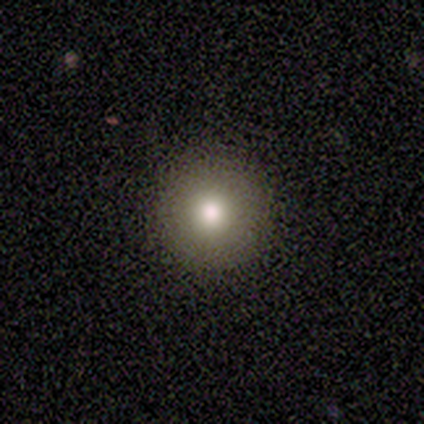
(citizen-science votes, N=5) Smooth or featured? 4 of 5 (80%) said smooth. How rounded? 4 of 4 (100%) said round. Merging? 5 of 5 (100%) said none.